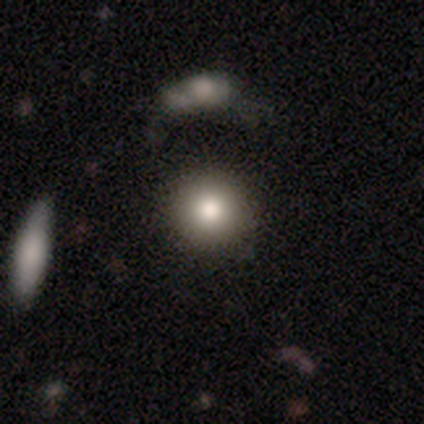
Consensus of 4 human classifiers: Morphology: type=smooth (100%); roundness=round (100%); merging=none (75%).